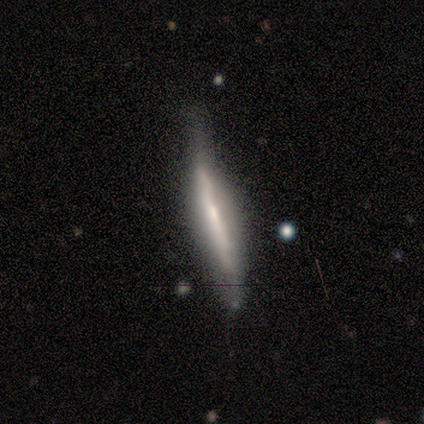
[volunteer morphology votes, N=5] This is clearly a featured or disk galaxy (80%). It is clearly viewed edge-on (100%). Edge-on bulge: possibly rounded (50%). Merging: likely none (75%).